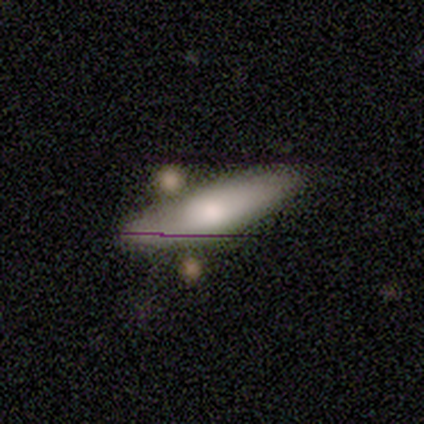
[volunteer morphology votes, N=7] Smooth or featured? smooth (71%)
How rounded? cigar-shaped (60%)
Merging? none (71%)